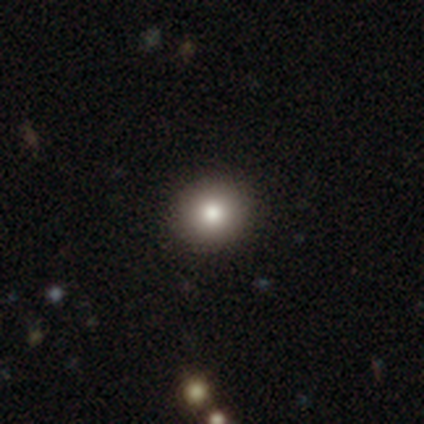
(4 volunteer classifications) Overall: smooth (100%). How rounded: round (100%). Merging: none (100%).